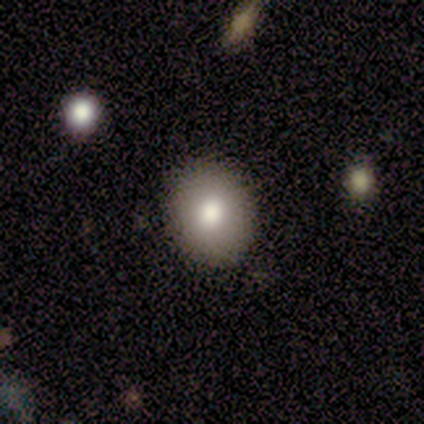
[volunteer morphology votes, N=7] smooth_or_featured: smooth (p=0.86) [alt: star or artifact p=0.14]
how_rounded: round (p=0.50) [tied with: in between p=0.50]
merging: none (p=1.00)